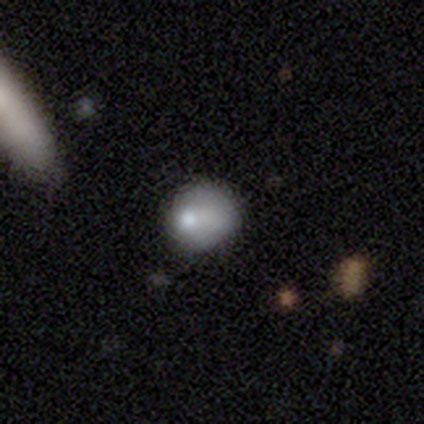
This appears to be a smooth galaxy with no disk features (100%) that is round (50%, tied with in between). Merging: none (50%, tied with minor disturbance).